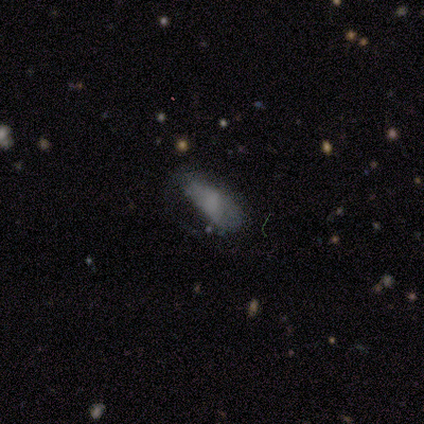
Smooth or featured?
  - smooth: 50% *
  - featured or disk: 25%
  - star or artifact: 25%
How rounded?
  - in between: 100% *
  - round: 0%
  - cigar-shaped: 0%
Merging?
  - major disturbance: 67% *
  - minor disturbance: 33%
  - none: 0%
  - merger: 0%